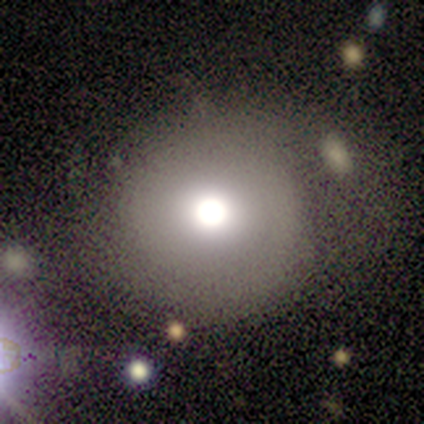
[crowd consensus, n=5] smooth-or-featured: smooth: 60% | featured or disk: 20% | star or artifact: 20%
  how-rounded: round: 67% | in between: 33% | cigar-shaped: 0%
  merging: none: 75% | merger: 25% | minor disturbance: 0% | major disturbance: 0%